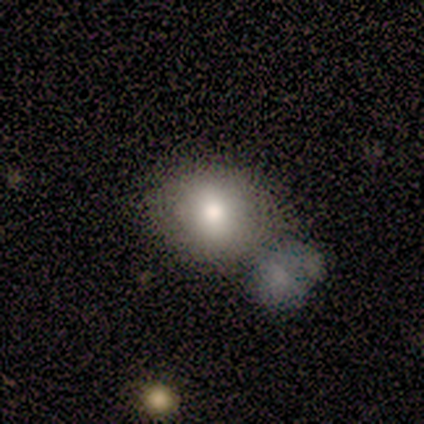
Smooth or featured: smooth — 60% (featured or disk — 40%)
How rounded: round — 67% (in between — 33%)
Merging: none — 60% (minor disturbance — 40%)